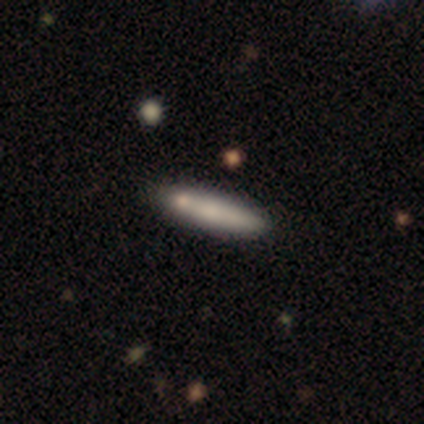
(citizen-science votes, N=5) Smooth or featured? smooth (100%)
How rounded? cigar-shaped (80%)
Merging? none (100%)